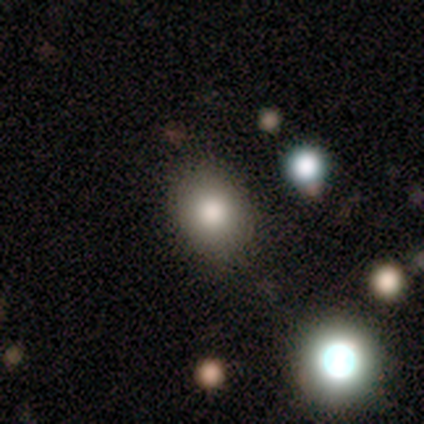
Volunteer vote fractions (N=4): Morphology: type=smooth (75%); roundness=in between (67%); merging=none (75%).